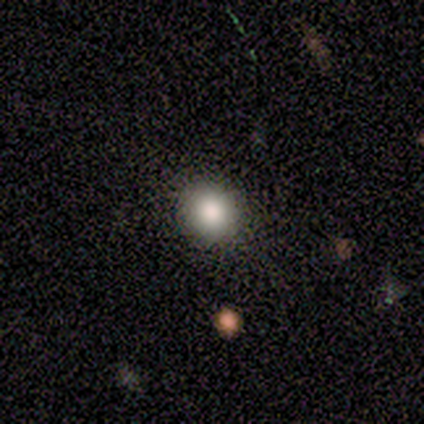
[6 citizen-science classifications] Overall: smooth (100%). How rounded: round (100%). Merging: none (100%).